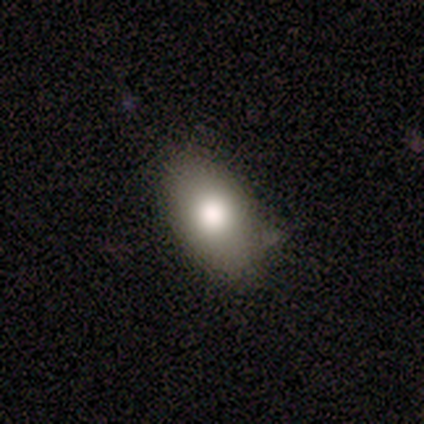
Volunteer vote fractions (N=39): Smooth or featured: smooth — 82% (featured or disk — 15%)
How rounded: in between — 94% (round — 6%)
Merging: none — 84% (minor disturbance — 11%)